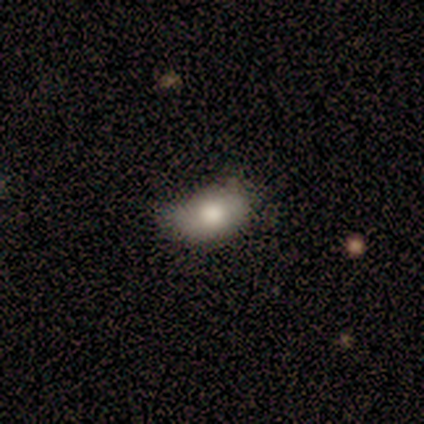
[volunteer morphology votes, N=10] smooth-or-featured: smooth: 50% | featured or disk: 30% | star or artifact: 20%
  how-rounded: in between: 100% | round: 0% | cigar-shaped: 0%
  merging: none: 50% (tied) | minor disturbance: 50% (tied) | major disturbance: 0% | merger: 0%